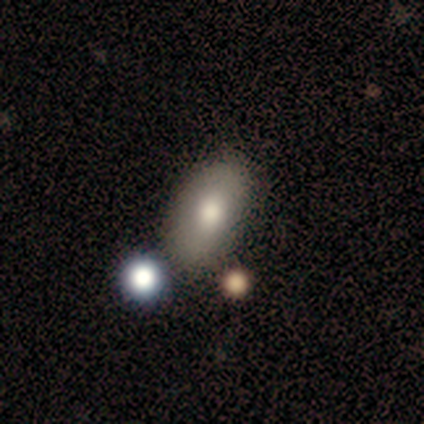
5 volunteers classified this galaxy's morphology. A smooth galaxy with no disk features (80%) that is in between round and cigar-shaped (100%).

Vote fractions:
- Smooth or featured? smooth: 80% / star or artifact: 20% / featured or disk: 0%
- How rounded? in between: 100% / round: 0% / cigar-shaped: 0%
- Merging? none: 50% / minor disturbance: 25% / major disturbance: 25% / merger: 0%